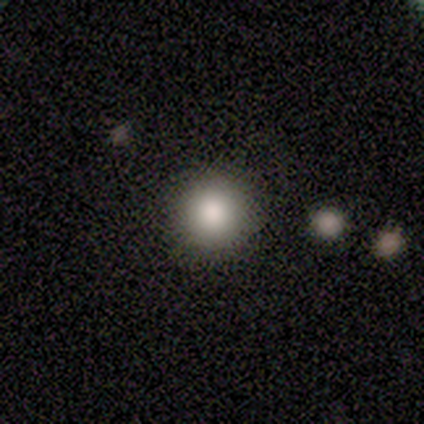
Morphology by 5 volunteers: Overall: smooth (100%). How rounded: round (100%). Merging: none (100%).